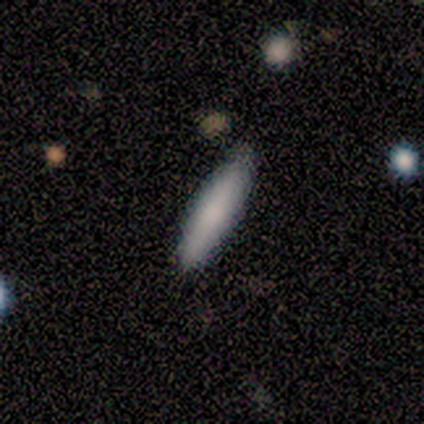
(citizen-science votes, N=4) Volunteers were most divided on "merging": minor disturbance: 50%, none: 25%, merger: 25%, major disturbance: 0%. More confident: how rounded — in between (100%); smooth or featured — smooth (75%).